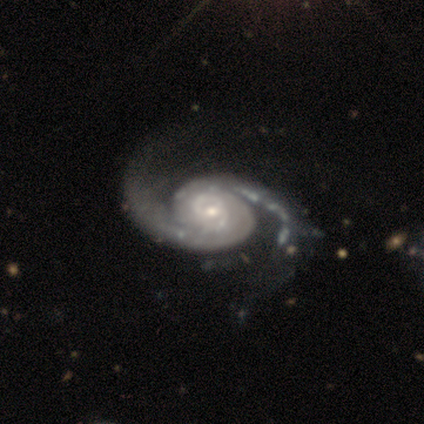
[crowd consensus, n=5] A featured or disk galaxy (100%) with no bar (100%), 2 (100%) tight (40%, tied with medium) spiral arms (100%) and a small central bulge (60%).

Vote fractions:
- Smooth or featured? featured or disk: 100% / smooth: 0% / star or artifact: 0%
- Edge-on disk? no: 100% / yes: 0%
- Bar? no: 100% / strong: 0% / weak: 0%
- Spiral arms? yes: 100% / no: 0%
- Spiral winding? tight: 40% (tied) / medium: 40% (tied) / loose: 20%
- Spiral arm count? 2: 100% / 1: 0% / 3: 0% / 4: 0% / more than 4: 0% / can't tell: 0%
- Bulge size? small: 60% / moderate: 40% / dominant: 0% / large: 0% / none: 0%
- Merging? none: 40% (tied) / minor disturbance: 40% (tied) / major disturbance: 20% / merger: 0%